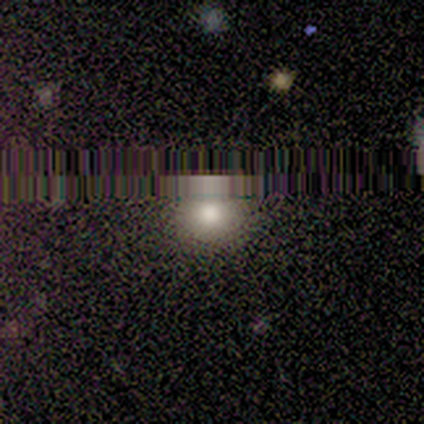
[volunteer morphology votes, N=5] smooth_or_featured: star or artifact (p=0.80) [alt: smooth p=0.20]